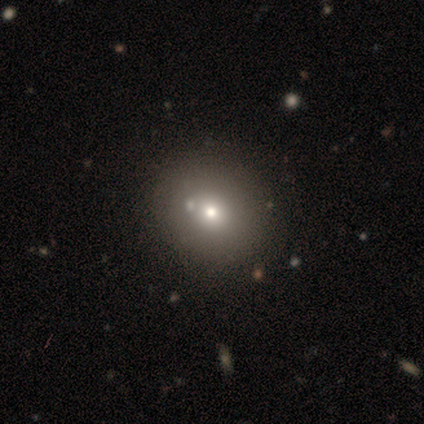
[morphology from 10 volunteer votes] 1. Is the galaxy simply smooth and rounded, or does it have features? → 70% smooth, 20% featured or disk, 10% star or artifact.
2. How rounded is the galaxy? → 71% round, 29% in between, 0% cigar-shaped.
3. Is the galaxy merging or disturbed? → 67% none, 22% merger, 11% minor disturbance, 0% major disturbance.